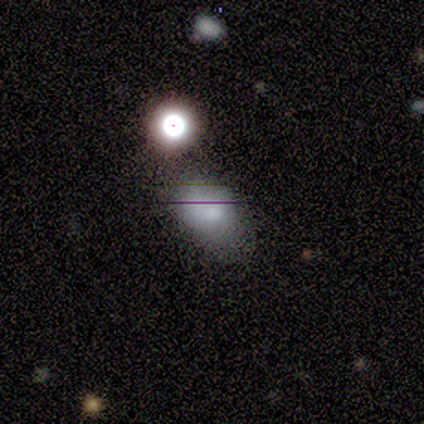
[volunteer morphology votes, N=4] Smooth or featured? 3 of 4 (75%) said smooth. How rounded? 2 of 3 (67%) said in between. Merging? 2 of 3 (67%) said minor disturbance.